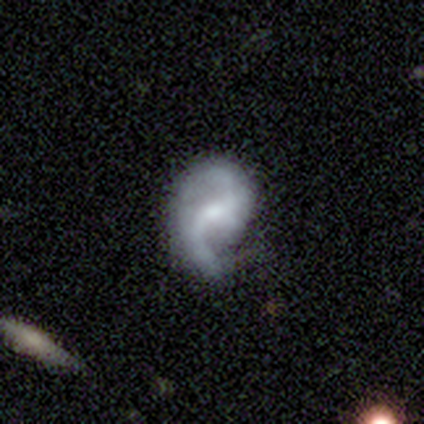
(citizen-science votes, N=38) Smooth or featured: featured or disk — 87% (smooth — 11%)
Edge-on disk: no — 100%
Bar: weak — 61% (no — 30%)
Spiral arms: yes — 94% (no — 6%)
Spiral winding: loose — 65% (medium — 26%)
Spiral arm count: 2 — 84% (1 — 13%)
Bulge size: small — 42% (moderate — 39%)
Merging: none — 57% (minor disturbance — 24%)